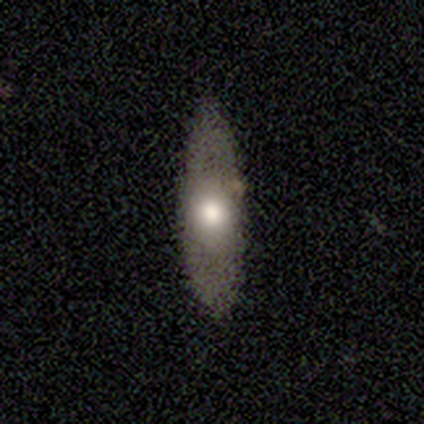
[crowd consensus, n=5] Smooth or featured? smooth (80%)
How rounded? in between (50%, tied with cigar-shaped)
Merging? none (100%)